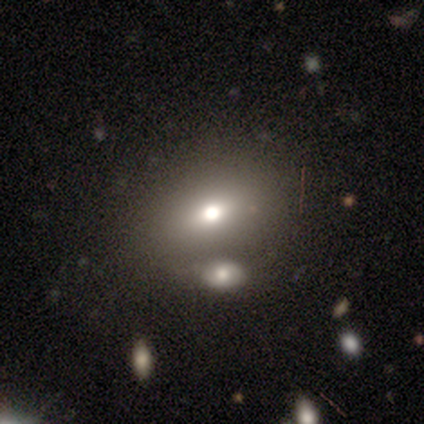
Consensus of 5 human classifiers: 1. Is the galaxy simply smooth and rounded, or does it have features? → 100% smooth, 0% featured or disk, 0% star or artifact.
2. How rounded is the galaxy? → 60% in between, 20% round, 20% cigar-shaped.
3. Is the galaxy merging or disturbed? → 60% none, 40% merger, 0% minor disturbance, 0% major disturbance.